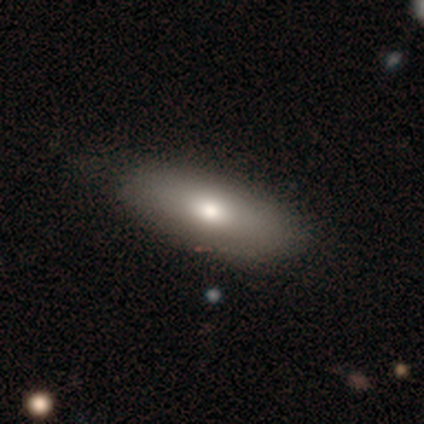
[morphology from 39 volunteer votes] Q: Smooth or featured?
A: smooth (79%); runner-up: featured or disk (15%)
Q: How rounded?
A: in between (94%); runner-up: round (3%)
Q: Merging?
A: none (54%); runner-up: minor disturbance (27%)